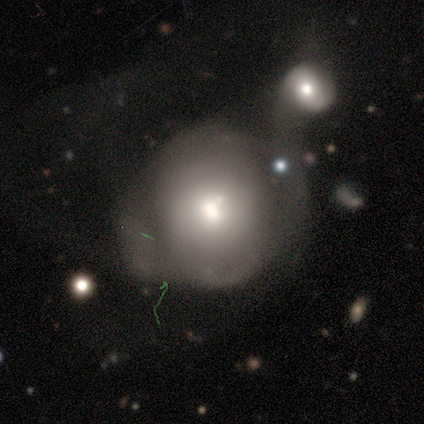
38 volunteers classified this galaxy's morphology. smooth-or-featured: smooth: 61% | featured or disk: 34% | star or artifact: 5%
  how-rounded: round: 70% | in between: 30% | cigar-shaped: 0%
  merging: merger: 53% | minor disturbance: 25% | none: 17% | major disturbance: 6%